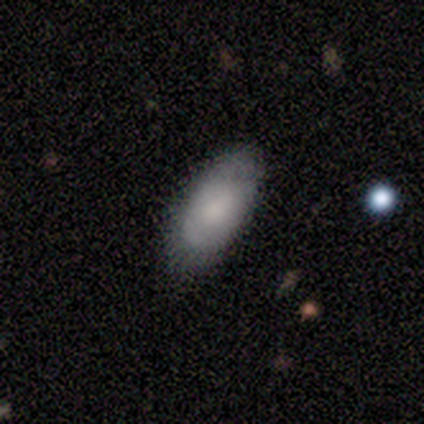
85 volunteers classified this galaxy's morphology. This appears to be a smooth galaxy with no disk features (72%) that is in between round and cigar-shaped (92%). Merging: none (71%).